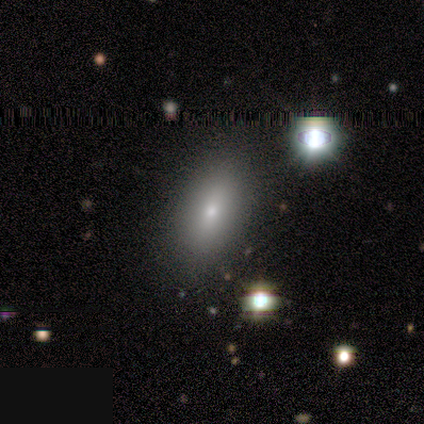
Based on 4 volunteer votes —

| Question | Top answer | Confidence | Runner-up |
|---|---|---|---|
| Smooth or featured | smooth | 50% | featured or disk (25%) |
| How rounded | in between | 50% | tied: cigar-shaped (50%) |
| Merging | none | 100% | — |